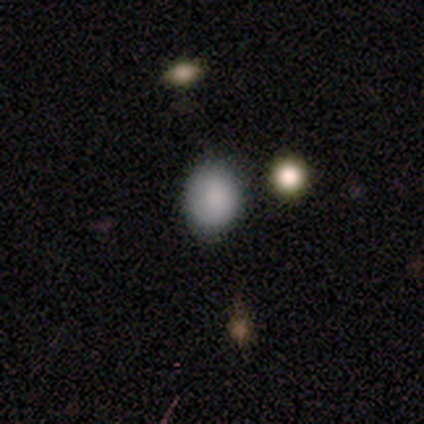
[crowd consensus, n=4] Smooth or featured? 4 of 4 (100%) said smooth. How rounded? 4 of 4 (100%) said round. Merging? 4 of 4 (100%) said none.